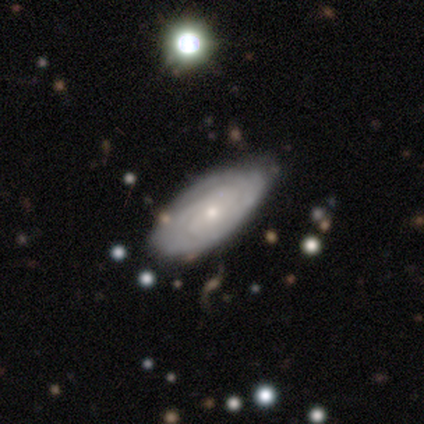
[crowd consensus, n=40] This appears to be a featured or disk galaxy (65%) with no bar (79%), tight (68%) spiral arms (92%) and a small central bulge (71%). Merging: none (79%).